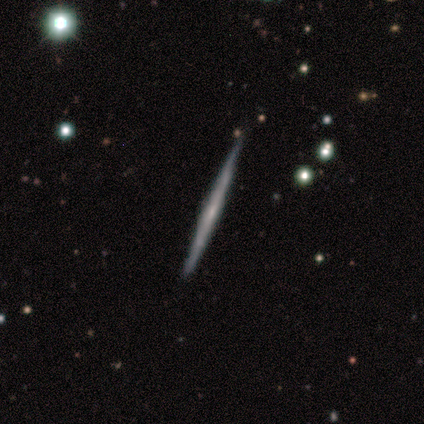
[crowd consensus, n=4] A featured or disk galaxy (75%) viewed edge-on (100%) with no central bulge (100%).

Vote fractions:
- Smooth or featured? featured or disk: 75% / smooth: 25% / star or artifact: 0%
- Edge-on disk? yes: 100% / no: 0%
- Edge-on bulge? none: 100% / boxy: 0% / rounded: 0%
- Merging? none: 100% / minor disturbance: 0% / major disturbance: 0% / merger: 0%